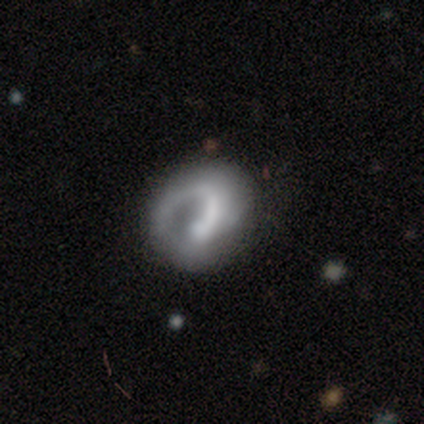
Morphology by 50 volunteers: Smooth or featured?
  - featured or disk: 68% *
  - smooth: 28%
  - star or artifact: 4%
Edge-on disk?
  - no: 97% *
  - yes: 3%
Bar?
  - no: 70% *
  - weak: 21%
  - strong: 9%
Spiral arms?
  - yes: 76% *
  - no: 24%
Spiral winding?
  - loose: 40% *
  - tight: 32%
  - medium: 28%
Spiral arm count?
  - 1: 96% *
  - 2: 4%
  - 3: 0%
  - 4: 0%
  - more than 4: 0%
  - can't tell: 0%
Bulge size?
  - none: 48% *
  - small: 24%
  - moderate: 21%
  - large: 6%
  - dominant: 0%
Merging?
  - none: 62% *
  - major disturbance: 21%
  - minor disturbance: 17%
  - merger: 0%